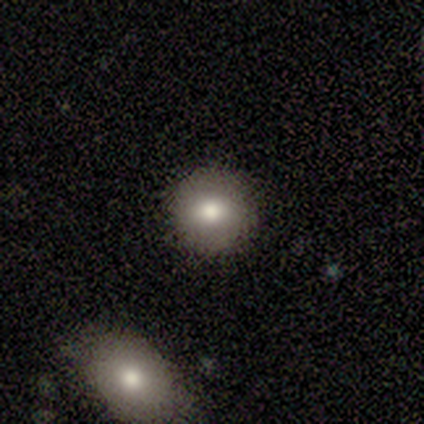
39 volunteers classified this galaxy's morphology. Smooth or featured: smooth — 69% (featured or disk — 23%)
How rounded: round — 81% (in between — 15%)
Merging: none — 94% (major disturbance — 6%)